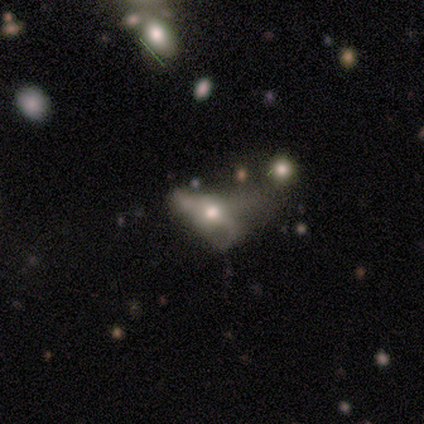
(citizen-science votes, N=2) smooth-or-featured: featured or disk: 50% (tied) | star or artifact: 50% (tied) | smooth: 0%
  disk-edge-on: no: 100% | yes: 0%
    bar: no: 100% | strong: 0% | weak: 0%
    has-spiral-arms: no: 100% | yes: 0%
    bulge-size: large: 100% | dominant: 0% | moderate: 0% | small: 0% | none: 0%
  merging: merger: 100% | none: 0% | minor disturbance: 0% | major disturbance: 0%